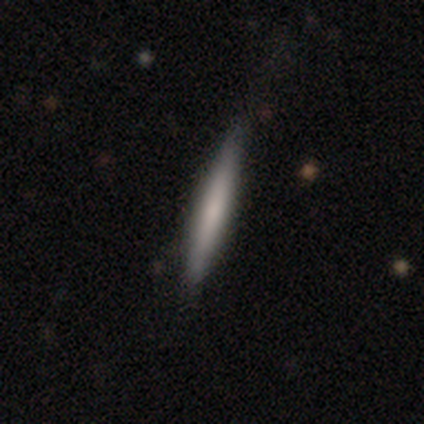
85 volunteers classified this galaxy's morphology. smooth_or_featured: smooth (p=0.64) [alt: featured or disk p=0.32]
how_rounded: cigar-shaped (p=0.96) [alt: in between p=0.04]
merging: none (p=0.89) [alt: minor disturbance p=0.09]